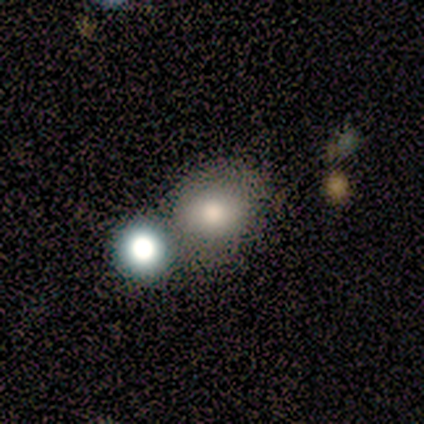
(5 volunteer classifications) Smooth or featured? smooth (100%)
How rounded? round (100%)
Merging? none (40%, tied with merger)